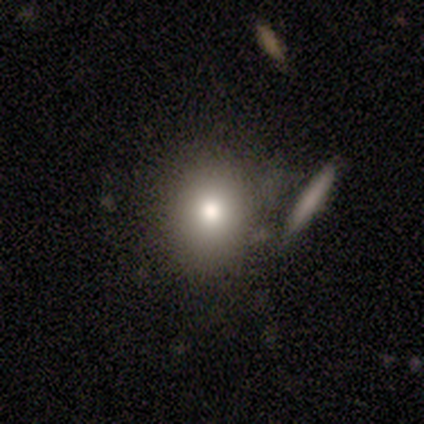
Morphology: type=smooth (80%); roundness=round (50%); merging=none (40%).